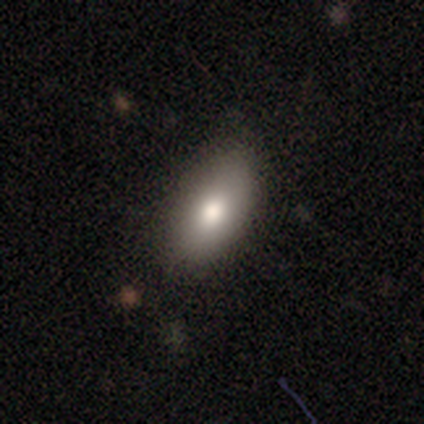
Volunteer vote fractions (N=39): Smooth or featured? 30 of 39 (77%) said smooth. How rounded? 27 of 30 (90%) said in between. Merging? 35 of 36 (97%) said none.